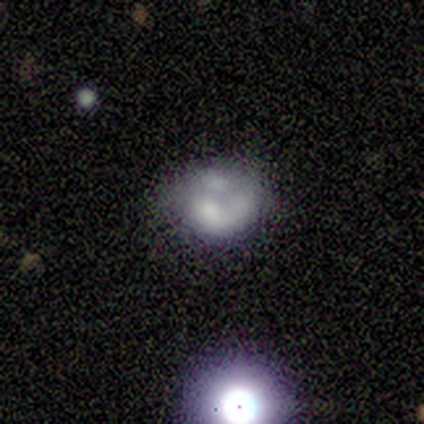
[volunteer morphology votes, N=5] This is likely a smooth galaxy (60%). How rounded: likely round (67%). Merging: likely none (60%).